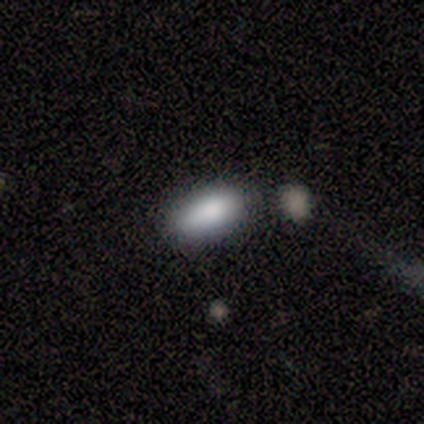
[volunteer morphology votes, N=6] Volunteers were most divided on "merging": none: 67%, minor disturbance: 17%, merger: 17%, major disturbance: 0%. More confident: smooth or featured — smooth (100%); how rounded — in between (100%).